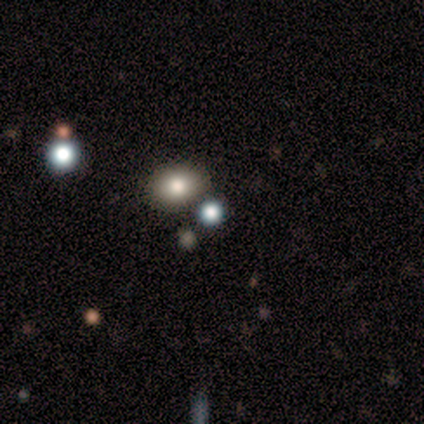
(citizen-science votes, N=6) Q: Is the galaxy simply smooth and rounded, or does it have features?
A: smooth — 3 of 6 (50%, tied with star or artifact).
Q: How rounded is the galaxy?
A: in between — 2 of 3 (67%).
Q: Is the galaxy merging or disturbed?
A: none — 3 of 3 (100%).